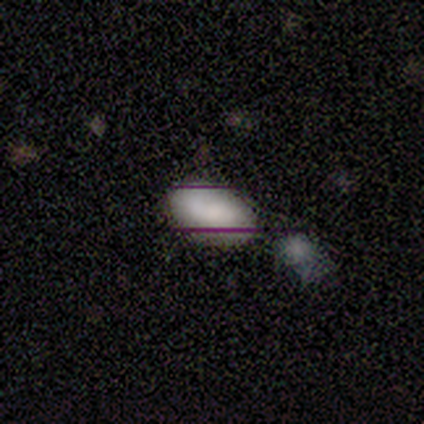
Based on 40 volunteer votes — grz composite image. It shows a smooth galaxy with no disk features (55%) that is in between round and cigar-shaped (95%). Merging: none (71%).